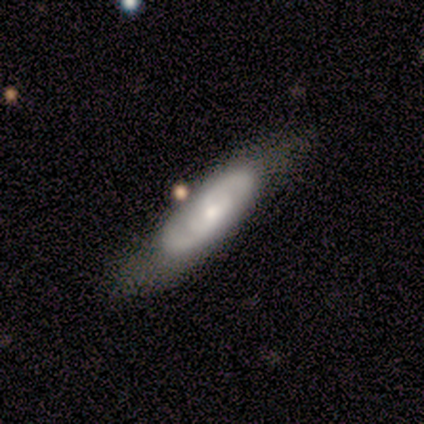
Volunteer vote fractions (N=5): This is likely a featured or disk galaxy (60%). It is clearly not viewed edge-on (100%). Bar: likely no (67%). Spiral arm pattern: likely yes (67%). Spiral arm count: possibly 2 (50%, tied with 4). Spiral winding: clearly medium (100%). Central bulge: likely moderate (67%). Merging: marginally none (40%, tied with minor disturbance).